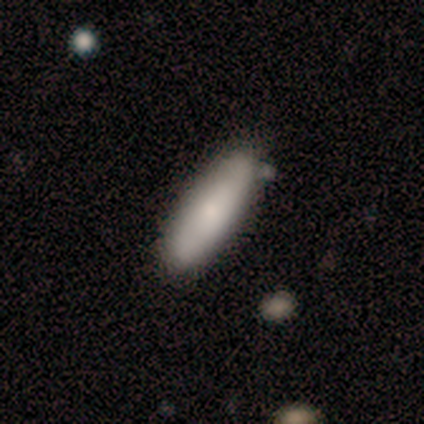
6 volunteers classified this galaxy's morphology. A smooth galaxy with no disk features (67%) that is in between round and cigar-shaped (75%). Merging: none (60%).